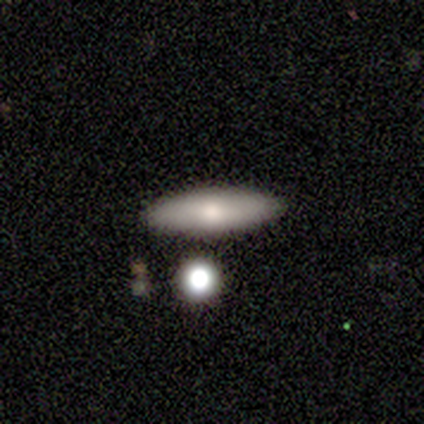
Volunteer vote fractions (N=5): smooth 100%, featured or disk 0%, star or artifact 0%. Down the decision tree: how rounded — cigar-shaped (60%); merging — none (100%).